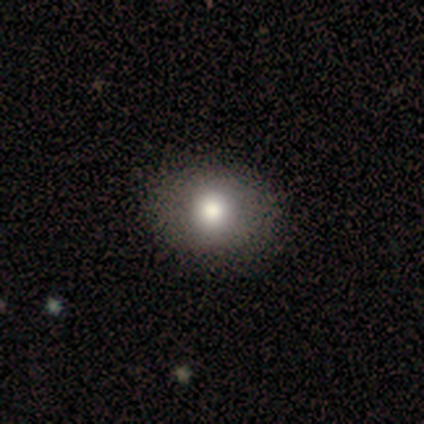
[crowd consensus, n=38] smooth_or_featured: smooth (p=0.84) [alt: featured or disk p=0.08]
how_rounded: round (p=0.59) [alt: in between p=0.41]
merging: none (p=0.63) [alt: minor disturbance p=0.06]